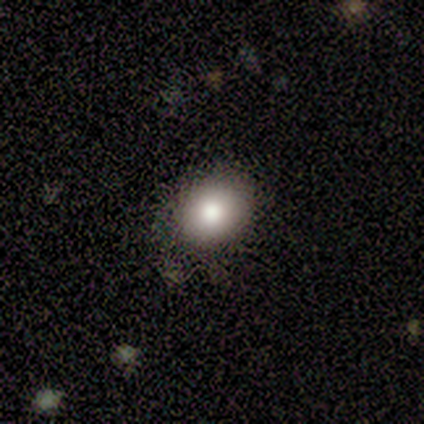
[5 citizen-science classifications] Consensus on every question: smooth or featured — smooth (100%); how rounded — in between (100%); merging — none (100%).